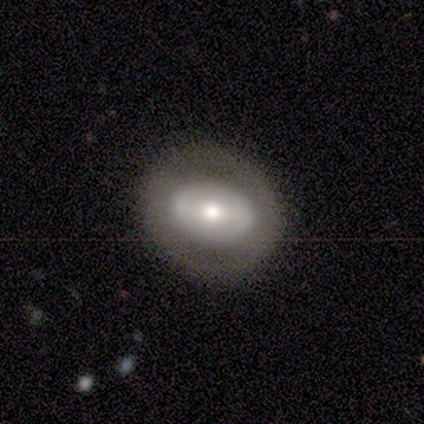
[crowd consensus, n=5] featured or disk 80%, smooth 20%, star or artifact 0%. Down the decision tree: edge-on disk — no (100%); bar — no (50%); spiral arms — no (100%); bulge size — moderate (75%); merging — none (80%).